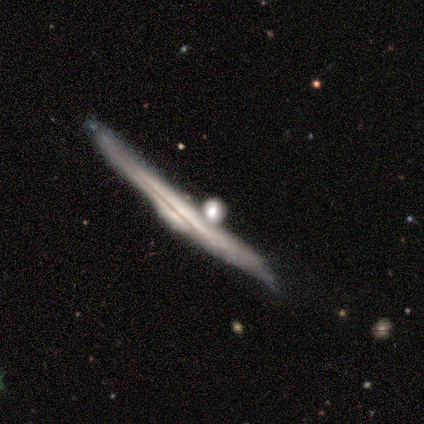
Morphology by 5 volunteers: A featured or disk galaxy (100%) viewed edge-on (80%) with a rounded central bulge (50%).

Vote fractions:
- Smooth or featured? featured or disk: 100% / smooth: 0% / star or artifact: 0%
- Edge-on disk? yes: 80% / no: 20%
- Edge-on bulge? rounded: 50% / boxy: 25% / none: 25%
- Merging? minor disturbance: 60% / none: 20% / merger: 20% / major disturbance: 0%